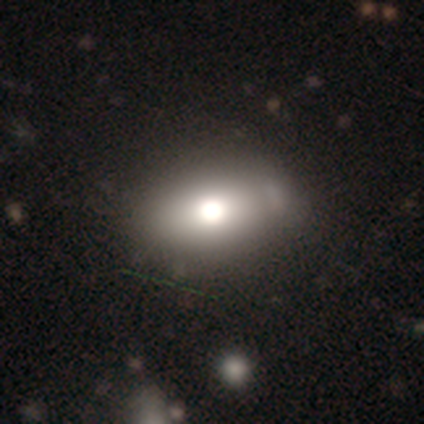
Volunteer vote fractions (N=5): A smooth galaxy with no disk features (60%) that is in between round and cigar-shaped (100%).

Vote fractions:
- Smooth or featured? smooth: 60% / featured or disk: 40% / star or artifact: 0%
- How rounded? in between: 100% / round: 0% / cigar-shaped: 0%
- Merging? minor disturbance: 40% (tied) / merger: 40% (tied) / none: 20% / major disturbance: 0%